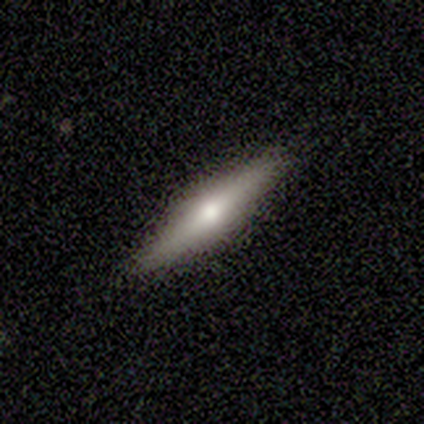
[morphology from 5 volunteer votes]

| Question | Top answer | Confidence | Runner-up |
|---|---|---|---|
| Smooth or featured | smooth | 40% | tied: featured or disk (40%) |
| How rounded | cigar-shaped | 100% | — |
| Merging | none | 50% | tied: minor disturbance (50%) |